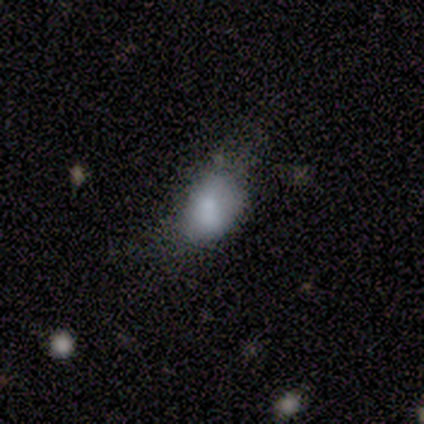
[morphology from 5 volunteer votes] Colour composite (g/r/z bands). It shows a smooth galaxy with no disk features (100%) that is in between round and cigar-shaped (80%). Merging: none (60%).